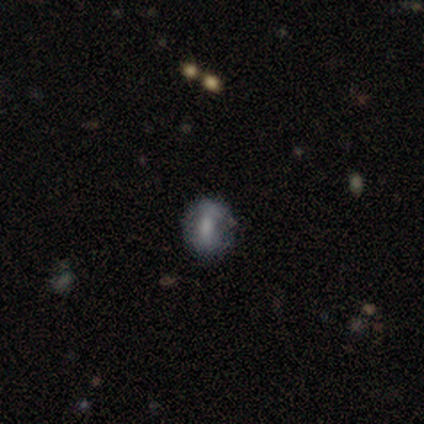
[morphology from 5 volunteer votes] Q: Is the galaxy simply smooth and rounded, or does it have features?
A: smooth — 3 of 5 (60%).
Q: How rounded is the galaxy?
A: round — 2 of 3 (67%).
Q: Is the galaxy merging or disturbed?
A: none — 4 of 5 (80%).